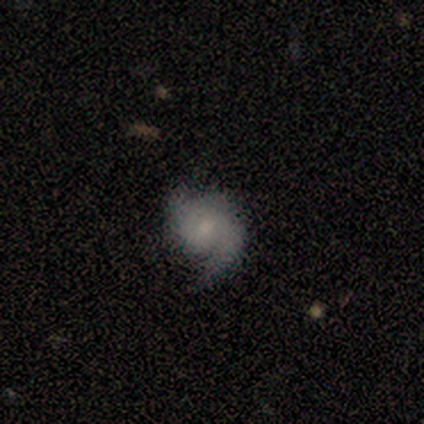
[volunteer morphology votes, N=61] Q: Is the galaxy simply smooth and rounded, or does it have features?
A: featured or disk — 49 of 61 (80%).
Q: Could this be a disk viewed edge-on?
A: no — 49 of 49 (100%).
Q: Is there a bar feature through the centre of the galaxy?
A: no — 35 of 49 (71%).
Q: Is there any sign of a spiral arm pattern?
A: yes — 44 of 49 (90%).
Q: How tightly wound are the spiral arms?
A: medium — 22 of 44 (50%).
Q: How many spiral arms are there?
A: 2 — 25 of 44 (57%).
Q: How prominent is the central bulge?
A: moderate — 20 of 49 (41%, tied with small).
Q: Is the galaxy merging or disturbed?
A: none — 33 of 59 (56%).